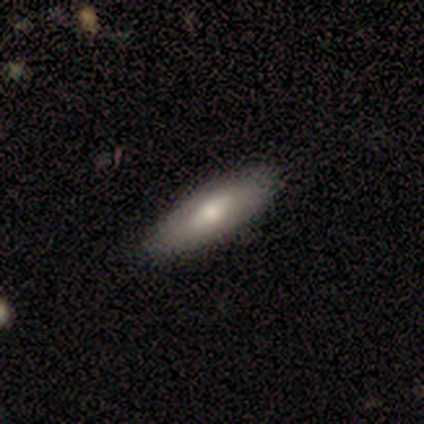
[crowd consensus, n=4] Q: Smooth or featured?
A: featured or disk (50%); runner-up: smooth (25%)
Q: Edge-on disk?
A: yes (50%); tied with: no (50%)
Q: Edge-on bulge?
A: rounded (100%)
Q: Merging?
A: none (100%)